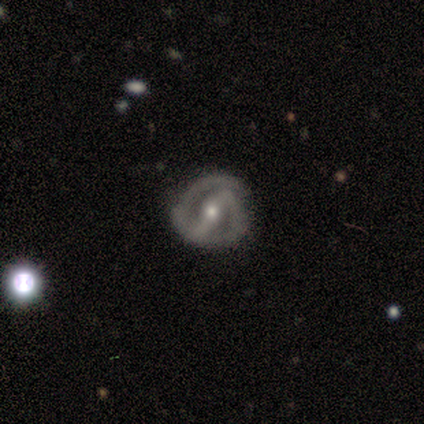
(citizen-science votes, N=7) Smooth or featured: featured or disk — 71% (smooth — 14%)
Edge-on disk: no — 80% (yes — 20%)
Bar: strong — 75% (weak — 25%)
Spiral arms: yes — 100%
Spiral winding: tight — 100%
Spiral arm count: 2 — 100%
Bulge size: small — 50% (moderate — 25%)
Merging: none — 83% (major disturbance — 17%)